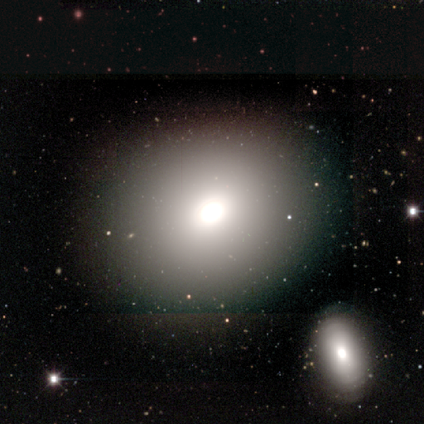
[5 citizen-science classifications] smooth_or_featured: smooth (p=0.80) [alt: featured or disk p=0.20]
how_rounded: round (p=0.75) [alt: in between p=0.25]
merging: none (p=0.80) [alt: major disturbance p=0.20]